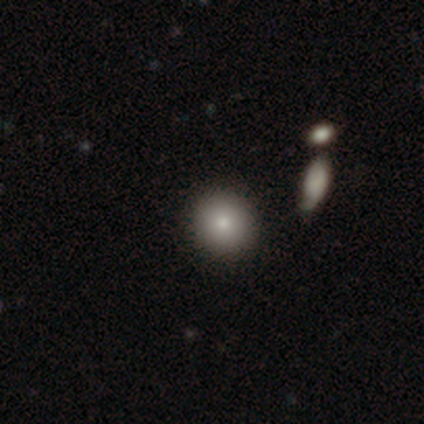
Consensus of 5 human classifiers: Q: Smooth or featured?
A: smooth (80%); runner-up: featured or disk (20%)
Q: How rounded?
A: round (75%); runner-up: in between (25%)
Q: Merging?
A: none (100%)